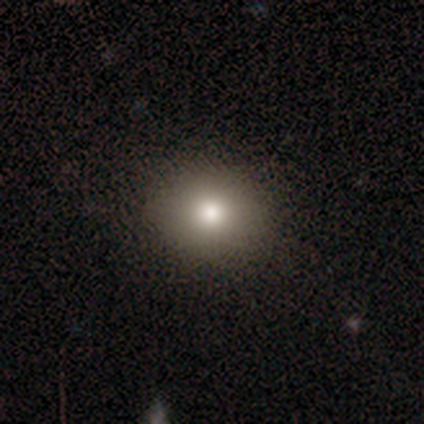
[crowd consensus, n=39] Smooth or featured? 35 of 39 (90%) said smooth. How rounded? 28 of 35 (80%) said round. Merging? 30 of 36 (83%) said none.